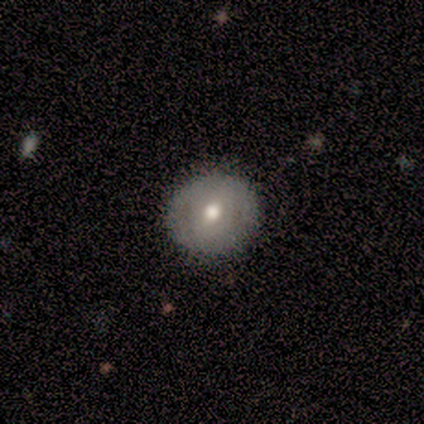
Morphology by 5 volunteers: A featured or disk galaxy (60%) with a strong bar (33%, tied with weak and no), no spiral arms (100%) and a moderate central bulge (67%). Merging: none (60%).